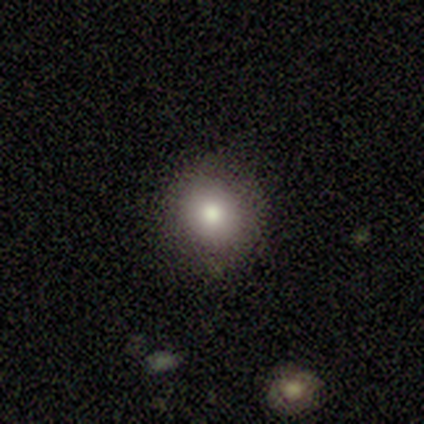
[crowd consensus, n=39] Overall: smooth (82%). How rounded: round (97%). Merging: none (94%).